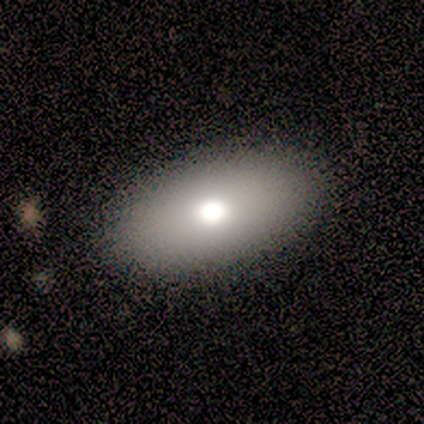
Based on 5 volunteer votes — A smooth galaxy with no disk features (80%) that is in between round and cigar-shaped (100%). Merging: none (100%).